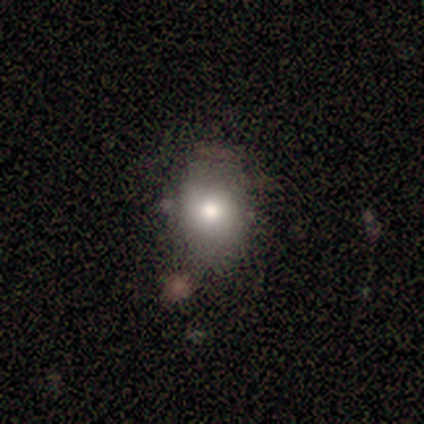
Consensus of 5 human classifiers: Volunteers were most divided on "how rounded": in between: 75%, round: 25%, cigar-shaped: 0%. More confident: smooth or featured — smooth (80%); merging — none (75%).